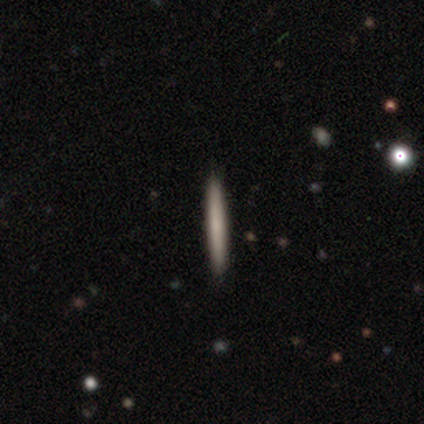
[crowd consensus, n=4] Q: Smooth or featured?
A: smooth (50%); tied with: featured or disk (50%)
Q: How rounded?
A: cigar-shaped (100%)
Q: Merging?
A: none (100%)